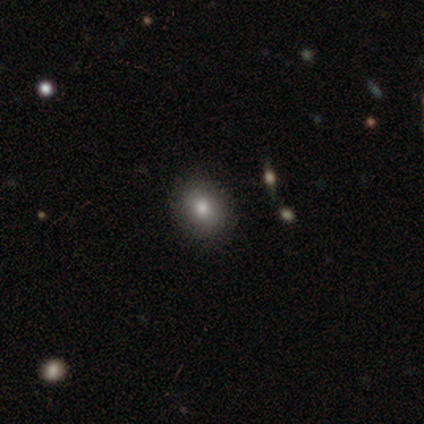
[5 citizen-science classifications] Volunteers were most divided on "how rounded": round: 75%, in between: 25%, cigar-shaped: 0%. More confident: merging — none (100%); smooth or featured — smooth (80%).